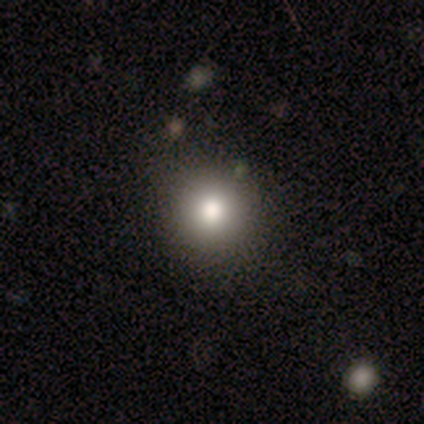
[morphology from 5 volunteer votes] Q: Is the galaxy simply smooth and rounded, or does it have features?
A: smooth — 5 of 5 (100%).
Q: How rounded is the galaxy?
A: round — 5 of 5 (100%).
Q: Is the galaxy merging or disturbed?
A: none — 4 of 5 (80%).